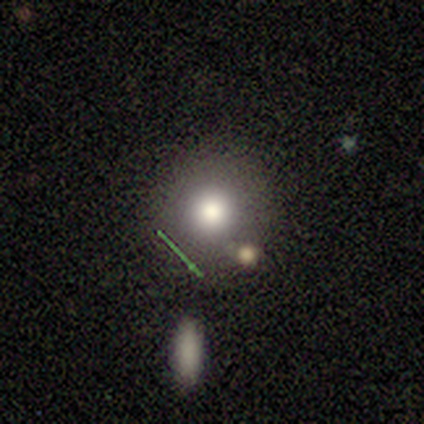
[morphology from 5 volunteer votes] smooth_or_featured: smooth (p=0.60) [alt: featured or disk p=0.20]
how_rounded: round (p=1.00)
merging: minor disturbance (p=0.50) [alt: none p=0.25]